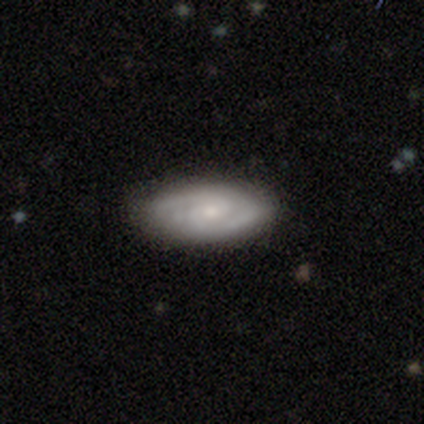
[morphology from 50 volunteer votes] type=featured or disk (74%); edge-on=no (95%); bar=no (69%); spiral arms=yes (94%); winding=tight (61%); arm count=2 (85%); bulge=moderate (49%); merging=none (83%).